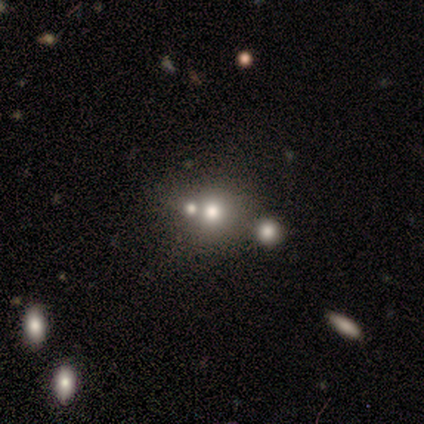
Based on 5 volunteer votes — A smooth galaxy with no disk features (80%) that is round (100%).

Vote fractions:
- Smooth or featured? smooth: 80% / featured or disk: 20% / star or artifact: 0%
- How rounded? round: 100% / in between: 0% / cigar-shaped: 0%
- Merging? merger: 60% / none: 40% / minor disturbance: 0% / major disturbance: 0%